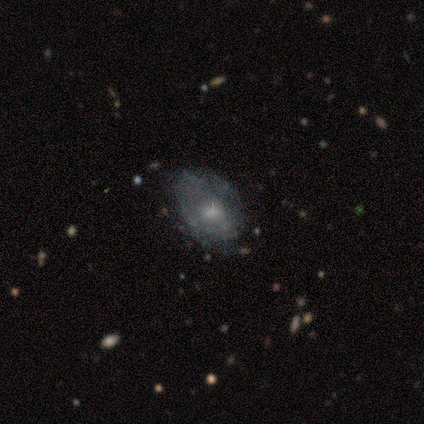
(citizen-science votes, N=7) Volunteers were most divided on "smooth or featured" (2-way tie): smooth: 43%, featured or disk: 43%, star or artifact: 14%. More confident: how rounded — in between (67%); merging — none (67%).